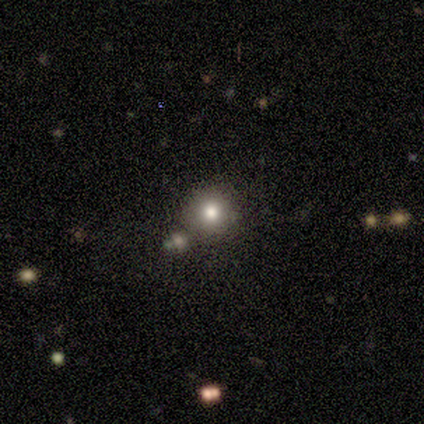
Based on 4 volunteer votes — Morphology: type=smooth (50%); roundness=round (100%); merging=none (67%).